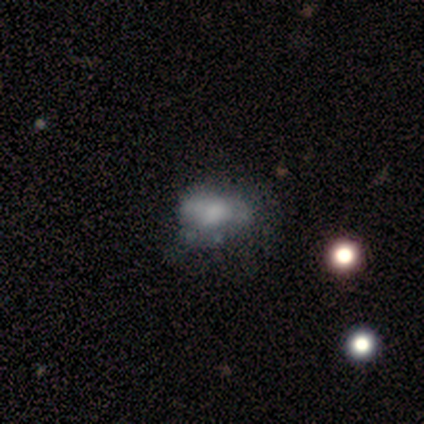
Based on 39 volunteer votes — Morphology: type=featured or disk (49%); edge-on=no (100%); bar=no (79%); spiral arms=no (79%); bulge=none (37%); merging=minor disturbance (21%, tied with major disturbance).